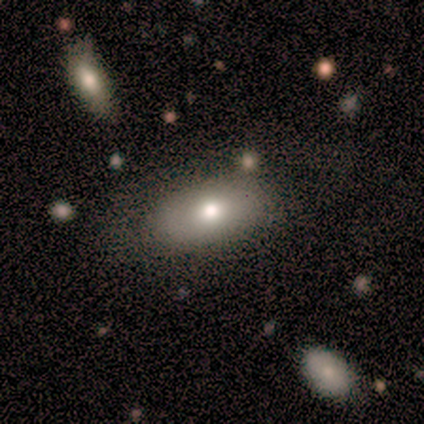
smooth_or_featured: smooth (p=0.60) [alt: featured or disk p=0.40]
how_rounded: in between (p=1.00)
merging: none (p=0.60) [alt: minor disturbance p=0.40]